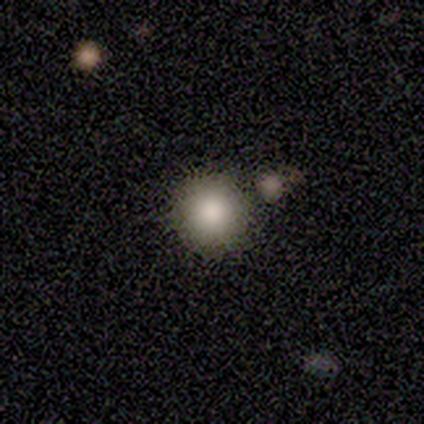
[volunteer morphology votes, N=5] smooth-or-featured: smooth: 100% | featured or disk: 0% | star or artifact: 0%
  how-rounded: round: 100% | in between: 0% | cigar-shaped: 0%
  merging: none: 100% | minor disturbance: 0% | major disturbance: 0% | merger: 0%